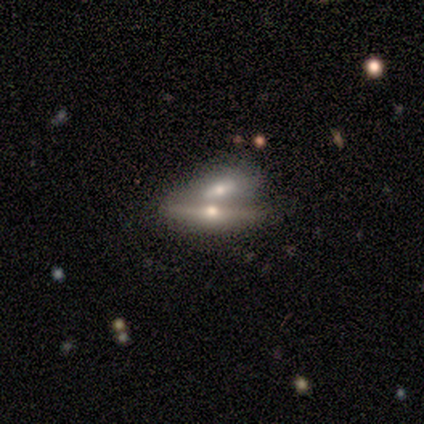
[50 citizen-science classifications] smooth-or-featured: featured or disk: 82% | smooth: 12% | star or artifact: 6%
  disk-edge-on: yes: 80% | no: 20%
    edge-on-bulge: rounded: 97% | none: 3% | boxy: 0%
  merging: merger: 70% | none: 26% | minor disturbance: 4% | major disturbance: 0%